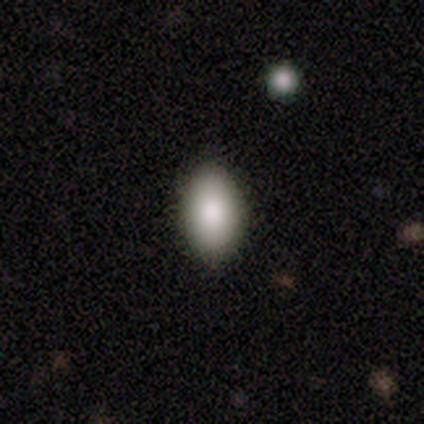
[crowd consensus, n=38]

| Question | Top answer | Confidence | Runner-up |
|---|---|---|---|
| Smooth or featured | smooth | 92% | star or artifact (5%) |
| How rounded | in between | 89% | round (11%) |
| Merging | none | 89% | minor disturbance (11%) |